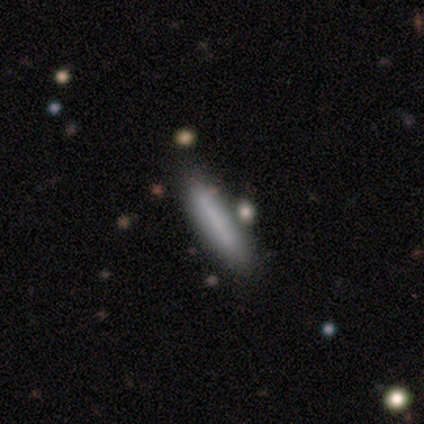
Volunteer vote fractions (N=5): This appears to be a smooth galaxy with no disk features (100%) that is cigar-shaped (100%). Merging: none (80%).